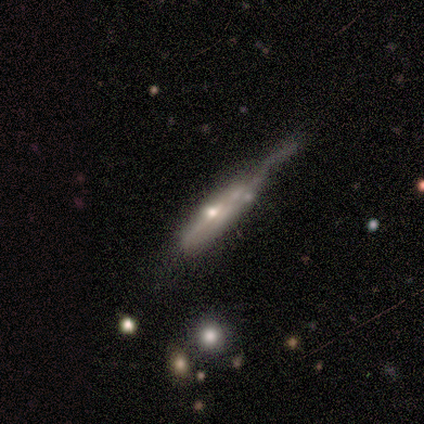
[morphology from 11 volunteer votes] Q: Smooth or featured?
A: featured or disk (55%); runner-up: smooth (36%)
Q: Edge-on disk?
A: yes (67%); runner-up: no (33%)
Q: Edge-on bulge?
A: rounded (75%); runner-up: boxy (25%)
Q: Merging?
A: major disturbance (60%); runner-up: minor disturbance (20%)